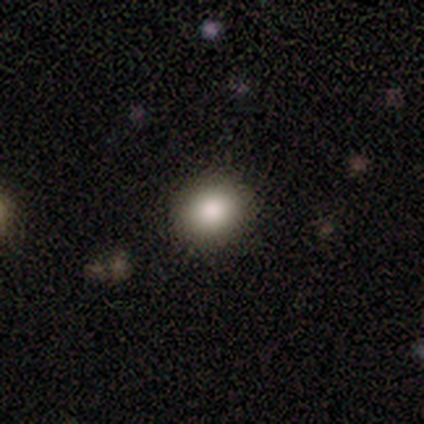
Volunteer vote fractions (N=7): smooth_or_featured: smooth (p=0.71) [alt: star or artifact p=0.29]
how_rounded: round (p=0.60) [alt: in between p=0.40]
merging: none (p=1.00)